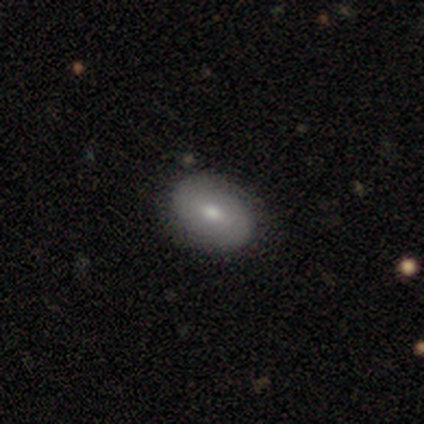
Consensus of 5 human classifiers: Overall: smooth (80%). How rounded: in between (75%). Merging: none (100%).